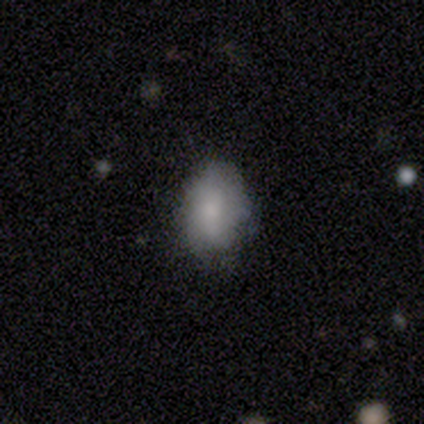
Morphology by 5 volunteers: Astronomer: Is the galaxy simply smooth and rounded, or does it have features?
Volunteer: smooth — 100%.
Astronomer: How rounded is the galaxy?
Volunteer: in between — 80%.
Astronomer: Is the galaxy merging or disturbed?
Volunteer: none — 80%.